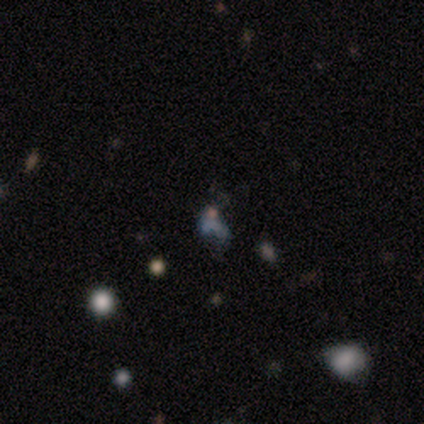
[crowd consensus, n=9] This is likely a star or artifact rather than a galaxy (67%).